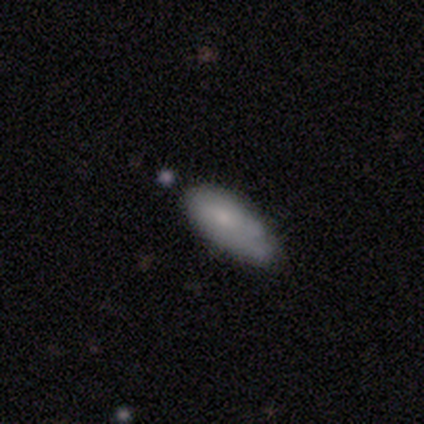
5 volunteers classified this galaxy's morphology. This appears to be a smooth galaxy with no disk features (60%) that is in between round and cigar-shaped (67%). Merging: none (100%).